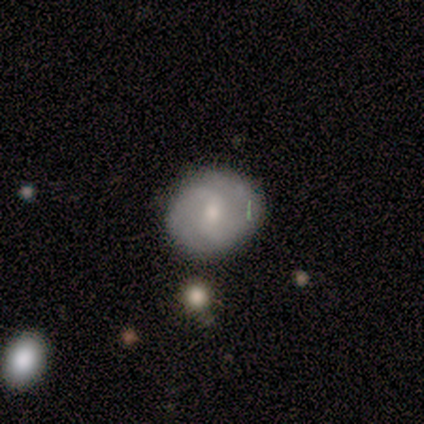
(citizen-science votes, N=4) Smooth or featured? 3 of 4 (75%) said featured or disk. Edge-on disk? 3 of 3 (100%) said no. Bar? 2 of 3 (67%) said no. Spiral arms? 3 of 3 (100%) said yes. Spiral winding? 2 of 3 (67%) said medium. Spiral arm count? 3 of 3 (100%) said 2. Bulge size? 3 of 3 (100%) said small. Merging? 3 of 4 (75%) said none.